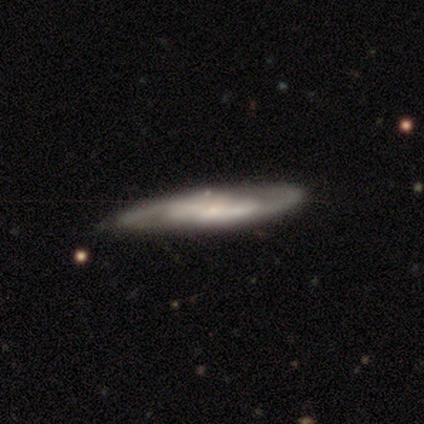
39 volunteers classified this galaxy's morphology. featured or disk 85%, smooth 15%, star or artifact 0%. Down the decision tree: edge-on disk — no (67%); bar — no (68%); spiral arms — yes (95%); spiral arm count — 2 (71%); spiral winding — medium (62%); bulge size — small (59%); merging — none (54%).